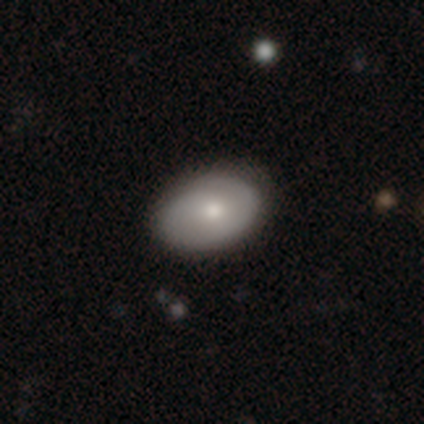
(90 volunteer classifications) Smooth or featured: smooth — 59% (featured or disk — 36%)
How rounded: in between — 85% (round — 15%)
Merging: none — 86% (minor disturbance — 13%)